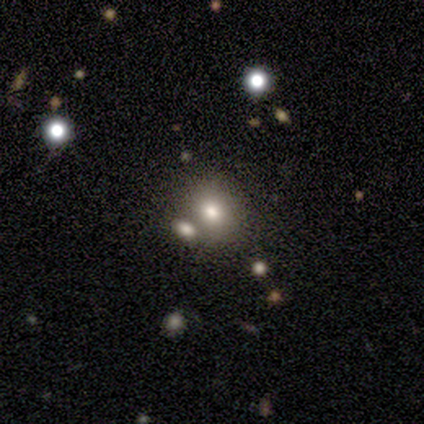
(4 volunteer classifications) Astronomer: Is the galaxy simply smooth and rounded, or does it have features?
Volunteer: smooth — 50%, tied with featured or disk at 50%.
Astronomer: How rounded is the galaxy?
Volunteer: round — 50%, tied with in between at 50%.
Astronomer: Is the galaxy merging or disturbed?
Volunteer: none — 50%.